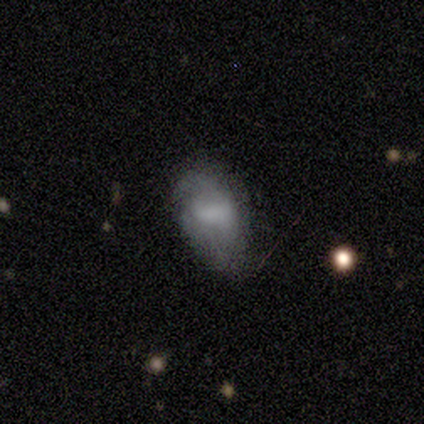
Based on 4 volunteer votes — smooth 75%, featured or disk 25%, star or artifact 0%. Down the decision tree: how rounded — in between (100%); merging — minor disturbance (50%).